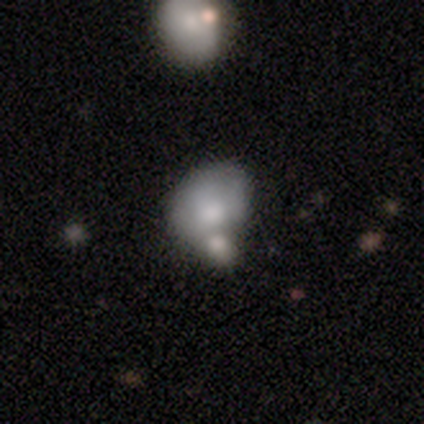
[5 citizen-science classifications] Volunteers were most divided on "merging" (2-way tie): minor disturbance: 40%, merger: 40%, none: 20%, major disturbance: 0%. More confident: how rounded — in between (100%); smooth or featured — smooth (80%).